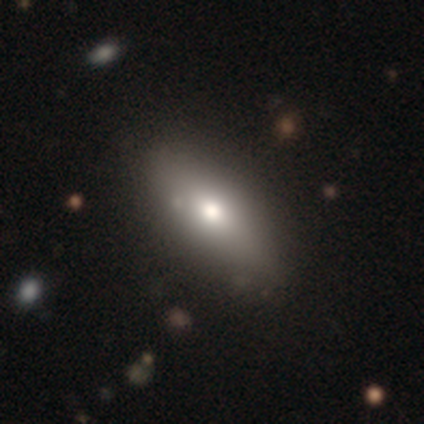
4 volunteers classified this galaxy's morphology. Smooth or featured?
  - featured or disk: 50% *
  - smooth: 25%
  - star or artifact: 25%
Edge-on disk?
  - no: 100% *
  - yes: 0%
Bar?
  - no: 100% *
  - strong: 0%
  - weak: 0%
Spiral arms?
  - no: 100% *
  - yes: 0%
Bulge size?
  - large: 50% * (tied)
  - moderate: 50% * (tied)
  - dominant: 0%
  - small: 0%
  - none: 0%
Merging?
  - none: 100% *
  - minor disturbance: 0%
  - major disturbance: 0%
  - merger: 0%